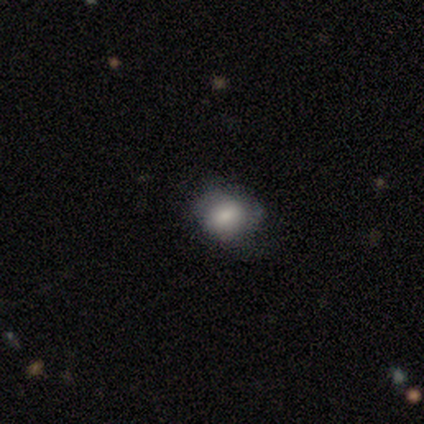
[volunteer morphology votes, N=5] Volunteers were most divided on "how rounded": round: 75%, in between: 25%, cigar-shaped: 0%. More confident: merging — none (100%); smooth or featured — smooth (80%).